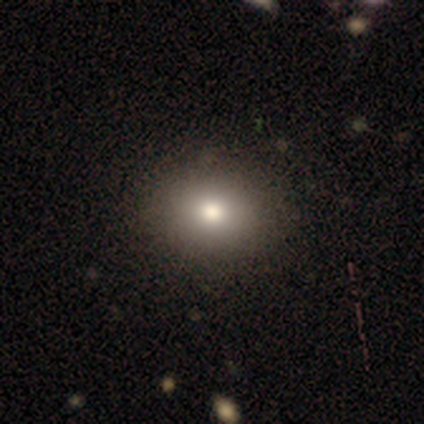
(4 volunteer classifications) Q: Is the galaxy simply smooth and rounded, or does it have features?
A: smooth — 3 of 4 (75%).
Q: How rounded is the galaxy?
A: round — 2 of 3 (67%).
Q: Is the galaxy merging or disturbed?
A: none — 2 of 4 (50%).